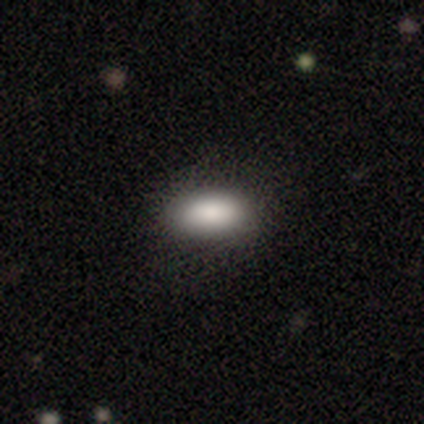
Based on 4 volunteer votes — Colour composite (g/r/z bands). It shows a smooth galaxy with no disk features (100%) that is in between round and cigar-shaped (100%). Merging: none (100%).